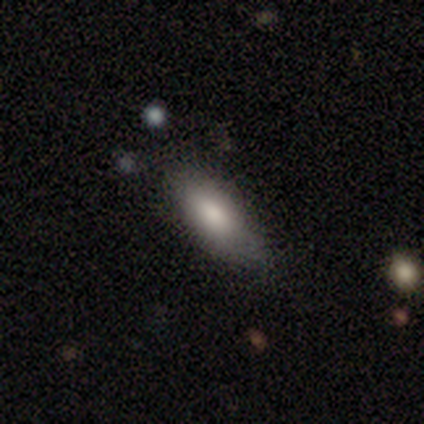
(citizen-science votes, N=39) Smooth or featured? smooth (90%)
How rounded? in between (89%)
Merging? none (59%)